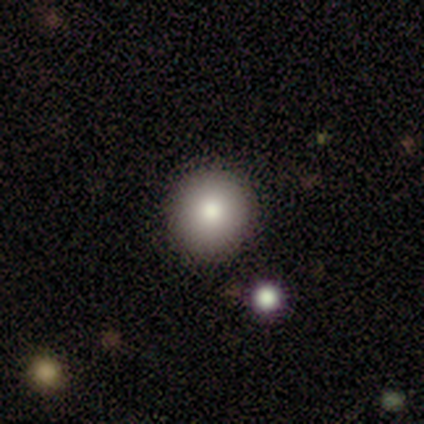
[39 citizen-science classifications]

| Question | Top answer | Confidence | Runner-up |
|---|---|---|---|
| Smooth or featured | smooth | 72% | featured or disk (15%) |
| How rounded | round | 89% | in between (7%) |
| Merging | none | 94% | minor disturbance (3%) |